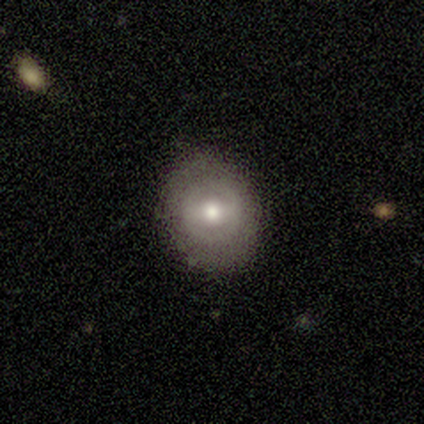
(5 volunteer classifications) Volunteers were most divided on "smooth or featured": featured or disk: 60%, smooth: 40%, star or artifact: 0%. More confident: edge-on disk — no (100%); spiral arms — no (100%); bulge size — moderate (100%); bar — no (67%); merging — none (60%).